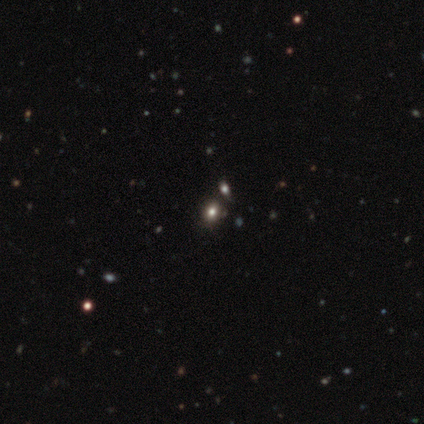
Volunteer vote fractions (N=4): Overall: star or artifact (50%; smooth 25%).